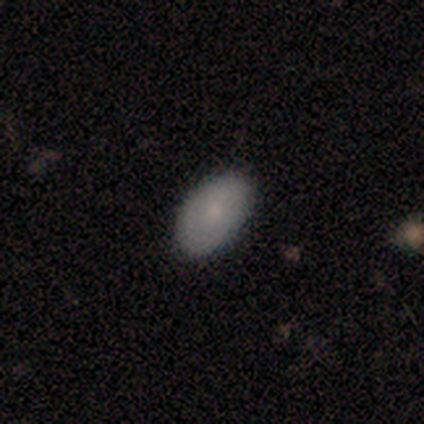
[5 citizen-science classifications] smooth_or_featured: smooth (p=0.80) [alt: star or artifact p=0.20]
how_rounded: in between (p=1.00)
merging: none (p=1.00)